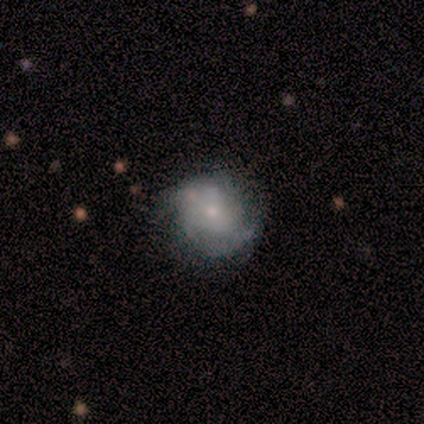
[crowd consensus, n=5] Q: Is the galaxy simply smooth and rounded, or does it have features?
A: featured or disk — 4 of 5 (80%).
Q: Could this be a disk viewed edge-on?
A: no — 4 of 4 (100%).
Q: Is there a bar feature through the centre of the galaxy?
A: no — 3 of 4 (75%).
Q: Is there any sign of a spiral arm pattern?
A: yes — 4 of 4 (100%).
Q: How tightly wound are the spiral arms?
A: tight — 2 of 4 (50%).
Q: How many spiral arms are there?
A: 1 — 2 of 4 (50%, tied with 2).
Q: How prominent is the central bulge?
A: small — 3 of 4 (75%).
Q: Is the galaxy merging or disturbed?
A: none — 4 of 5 (80%).